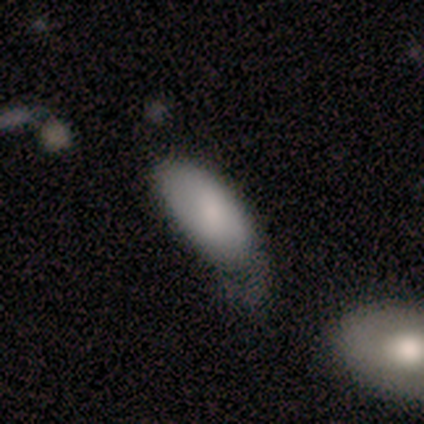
A smooth galaxy with no disk features (80%) that is in between round and cigar-shaped (100%).

Vote fractions:
- Smooth or featured? smooth: 80% / featured or disk: 20% / star or artifact: 0%
- How rounded? in between: 100% / round: 0% / cigar-shaped: 0%
- Merging? none: 40% (tied) / major disturbance: 40% (tied) / minor disturbance: 20% / merger: 0%